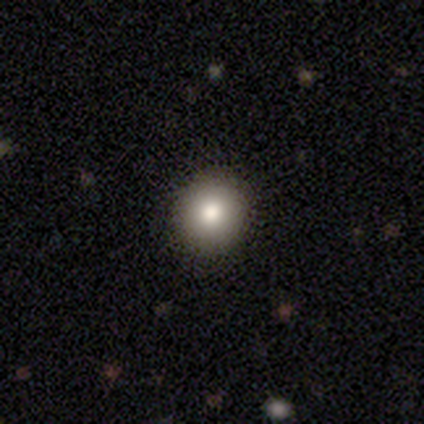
Smooth or featured?
  - smooth: 80% *
  - featured or disk: 20%
  - star or artifact: 0%
How rounded?
  - round: 100% *
  - in between: 0%
  - cigar-shaped: 0%
Merging?
  - none: 100% *
  - minor disturbance: 0%
  - major disturbance: 0%
  - merger: 0%